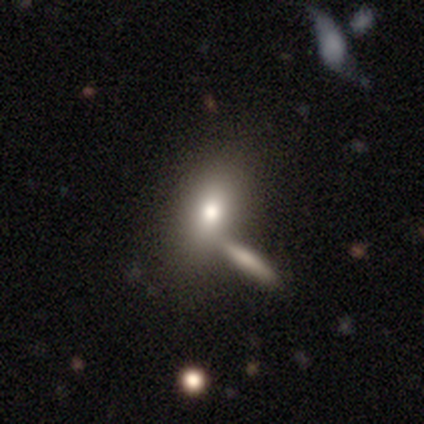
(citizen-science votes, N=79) Q: Smooth or featured?
A: smooth (71%); runner-up: featured or disk (19%)
Q: How rounded?
A: in between (68%); runner-up: round (16%)
Q: Merging?
A: merger (37%); runner-up: none (34%)